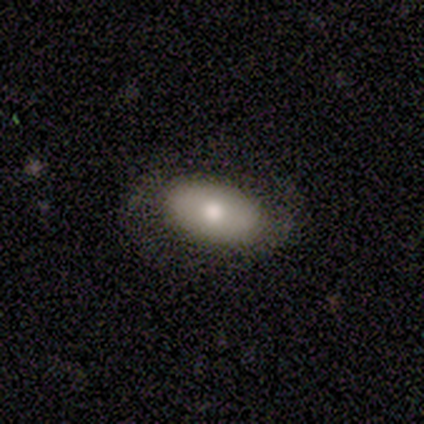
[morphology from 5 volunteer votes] smooth-or-featured: smooth: 60% | featured or disk: 40% | star or artifact: 0%
  how-rounded: in between: 67% | round: 33% | cigar-shaped: 0%
  merging: none: 100% | minor disturbance: 0% | major disturbance: 0% | merger: 0%